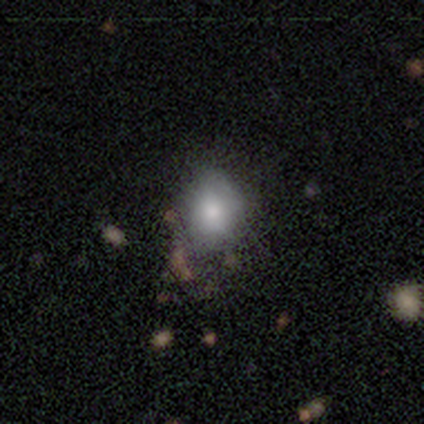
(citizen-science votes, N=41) smooth_or_featured: smooth (p=0.54) [alt: featured or disk p=0.34]
how_rounded: round (p=0.50) [tied with: in between p=0.50]
merging: none (p=0.42) [alt: minor disturbance p=0.25]